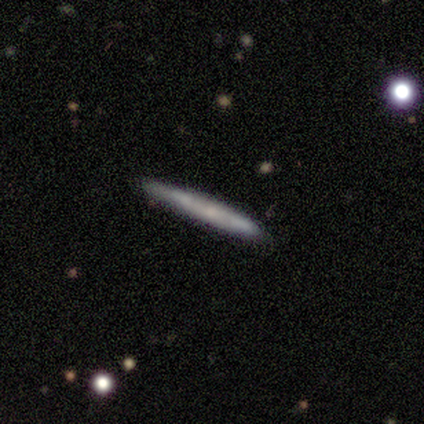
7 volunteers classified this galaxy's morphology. smooth-or-featured: smooth: 71% | featured or disk: 29% | star or artifact: 0%
  how-rounded: cigar-shaped: 100% | round: 0% | in between: 0%
  merging: none: 86% | minor disturbance: 14% | major disturbance: 0% | merger: 0%